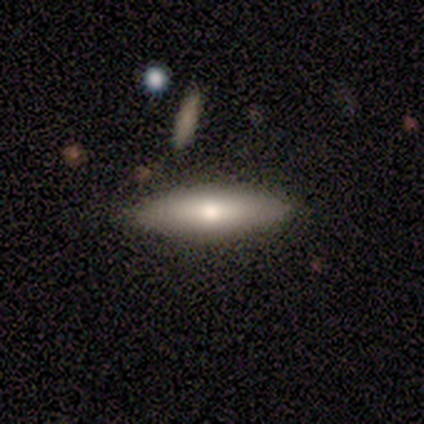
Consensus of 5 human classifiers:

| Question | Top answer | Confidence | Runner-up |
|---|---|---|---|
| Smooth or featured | featured or disk | 60% | smooth (20%) |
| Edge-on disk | no | 67% | yes (33%) |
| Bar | weak | 50% | tied: no (50%) |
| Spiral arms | yes | 50% | tied: no (50%) |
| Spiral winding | medium | 100% | — |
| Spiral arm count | can't tell | 100% | — |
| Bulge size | moderate | 100% | — |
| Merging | none | 100% | — |